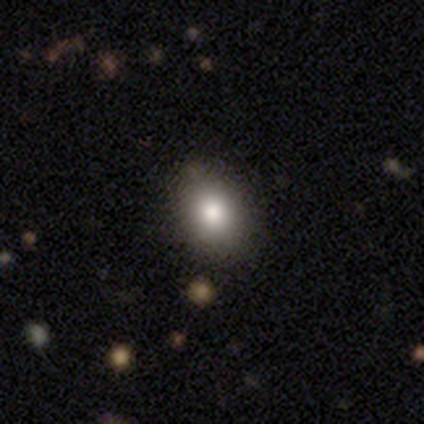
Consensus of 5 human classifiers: A smooth galaxy with no disk features (60%) that is round (67%). Merging: none (80%).